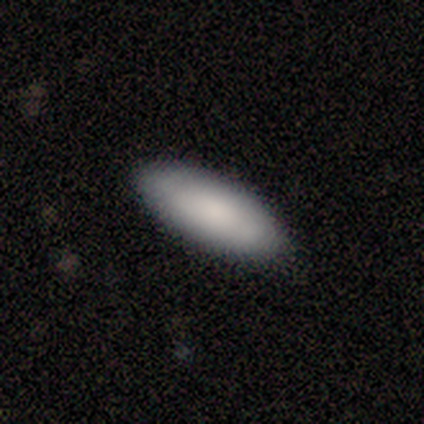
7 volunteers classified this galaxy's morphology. type=smooth (86%); roundness=in between (100%); merging=none (100%).